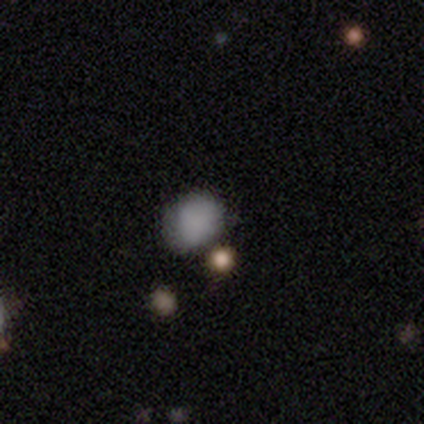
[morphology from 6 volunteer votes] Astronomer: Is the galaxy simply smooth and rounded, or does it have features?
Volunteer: star or artifact — 50% (runner-up: smooth, 33%).